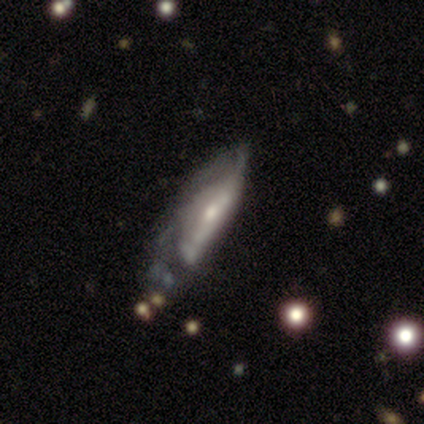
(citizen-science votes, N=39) Smooth or featured: featured or disk — 77% (smooth — 18%)
Edge-on disk: no — 60% (yes — 40%)
Bar: no — 56% (weak — 28%)
Spiral arms: yes — 61% (no — 39%)
Spiral winding: tight — 45% (medium — 36%)
Spiral arm count: can't tell — 73% (2 — 18%)
Bulge size: moderate — 50% (small — 44%)
Merging: minor disturbance — 38% (tied with major disturbance — 38%)